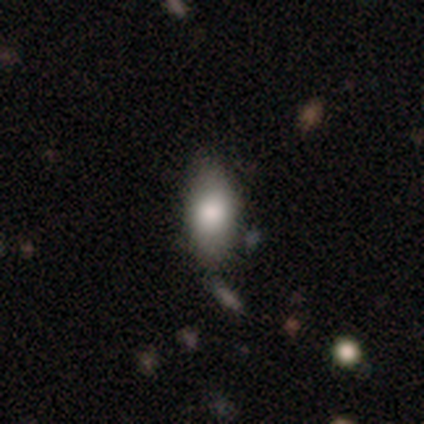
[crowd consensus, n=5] A smooth galaxy with no disk features (100%) that is in between round and cigar-shaped (100%). Merging: none (80%).